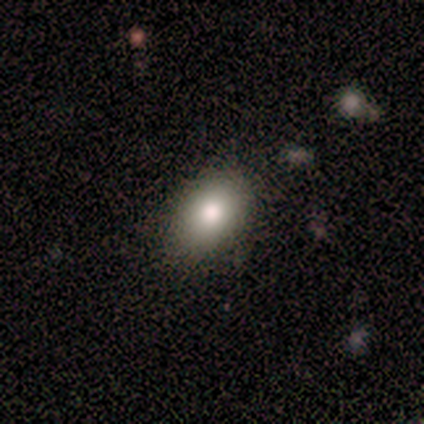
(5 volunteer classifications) A smooth galaxy with no disk features (60%) that is in between round and cigar-shaped (67%).

Vote fractions:
- Smooth or featured? smooth: 60% / star or artifact: 40% / featured or disk: 0%
- How rounded? in between: 67% / round: 33% / cigar-shaped: 0%
- Merging? none: 100% / minor disturbance: 0% / major disturbance: 0% / merger: 0%